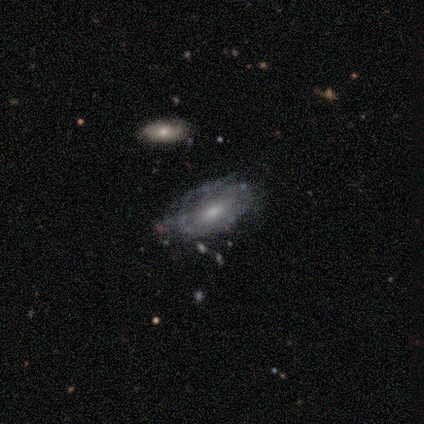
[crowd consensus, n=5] Smooth or featured? featured or disk (60%)
Edge-on disk? no (100%)
Bar? no (67%)
Spiral arms? yes (67%)
Spiral winding? tight (50%, tied with loose)
Spiral arm count? 2 (50%, tied with can't tell)
Bulge size? moderate (67%)
Merging? none (60%)